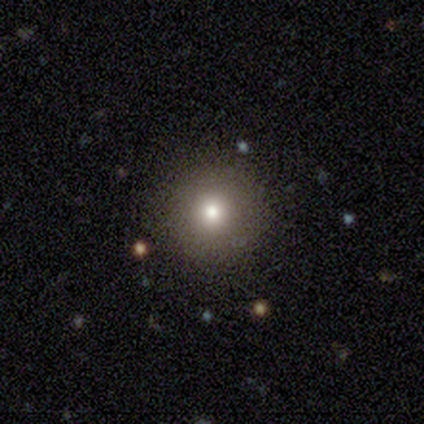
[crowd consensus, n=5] Volunteers were most divided on "merging": none: 75%, minor disturbance: 25%, major disturbance: 0%, merger: 0%. More confident: how rounded — round (100%); smooth or featured — smooth (80%).